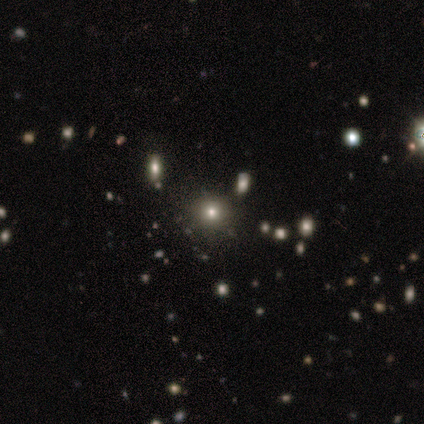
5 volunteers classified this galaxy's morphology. Smooth or featured? 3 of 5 (60%) said smooth. How rounded? 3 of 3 (100%) said round. Merging? 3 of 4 (75%) said none.